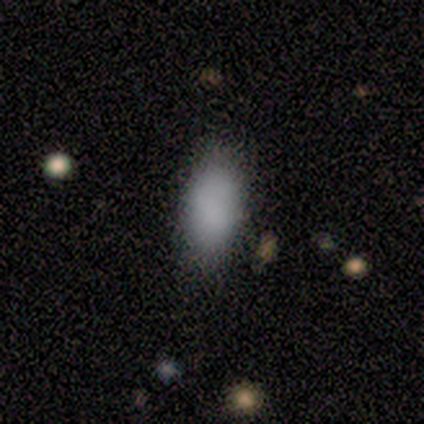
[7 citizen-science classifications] Overall: smooth (71%). How rounded: in between (80%). Merging: none (80%).